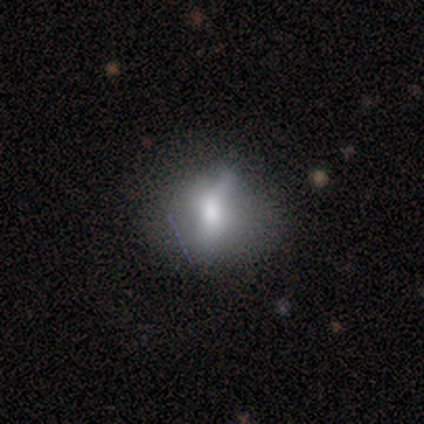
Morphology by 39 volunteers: A smooth galaxy with no disk features (56%) that is in between round and cigar-shaped (55%).

Vote fractions:
- Smooth or featured? smooth: 56% / featured or disk: 31% / star or artifact: 13%
- How rounded? in between: 55% / round: 45% / cigar-shaped: 0%
- Merging? minor disturbance: 59% / none: 24% / major disturbance: 15% / merger: 3%